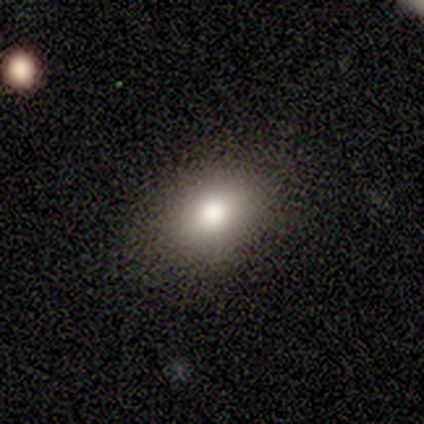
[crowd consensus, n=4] Smooth or featured? 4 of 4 (100%) said smooth. How rounded? 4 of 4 (100%) said in between. Merging? 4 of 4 (100%) said none.